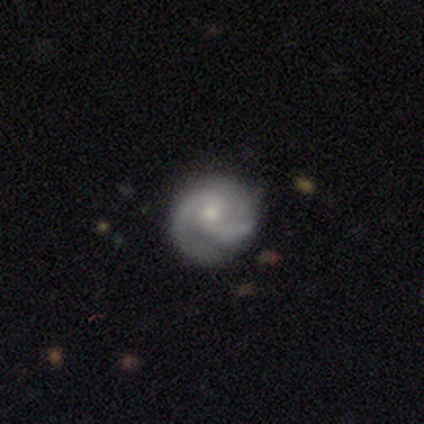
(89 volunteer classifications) A featured or disk galaxy (73%) with no bar (63%), 2 (88%) medium (45%) spiral arms (89%) and a small central bulge (68%). Merging: none (66%).